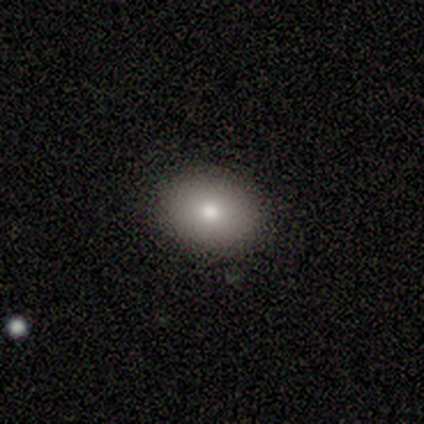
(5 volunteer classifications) Smooth or featured?
  - smooth: 80% *
  - featured or disk: 20%
  - star or artifact: 0%
How rounded?
  - in between: 75% *
  - round: 25%
  - cigar-shaped: 0%
Merging?
  - none: 100% *
  - minor disturbance: 0%
  - major disturbance: 0%
  - merger: 0%